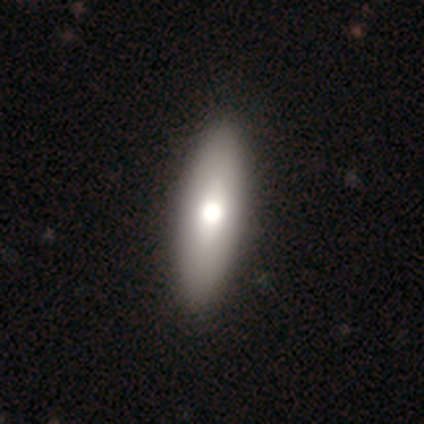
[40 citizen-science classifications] Q: Smooth or featured?
A: smooth (70%); runner-up: featured or disk (25%)
Q: How rounded?
A: in between (64%); runner-up: cigar-shaped (36%)
Q: Merging?
A: none (79%); runner-up: major disturbance (3%)